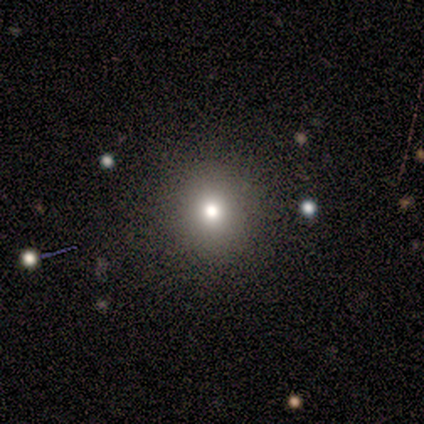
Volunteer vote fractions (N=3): Smooth or featured: smooth — 100%
How rounded: round — 67% (in between — 33%)
Merging: none — 67% (minor disturbance — 33%)